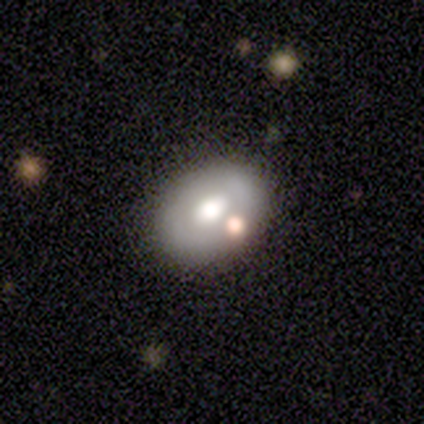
Q: Smooth or featured?
A: smooth (100%)
Q: How rounded?
A: in between (80%); runner-up: round (20%)
Q: Merging?
A: none (60%); runner-up: minor disturbance (40%)